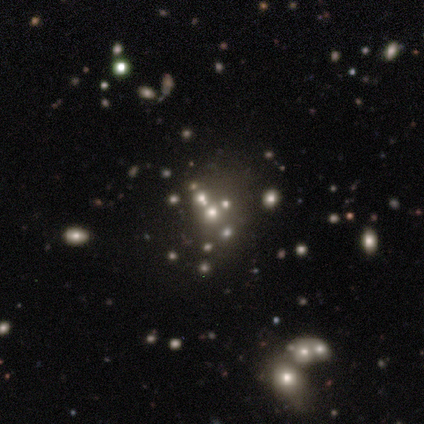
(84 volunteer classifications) smooth-or-featured: star or artifact: 57% | smooth: 24% | featured or disk: 19%